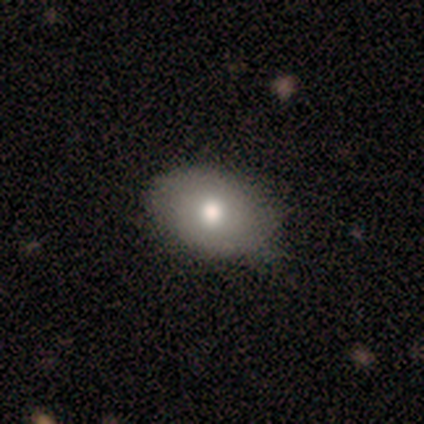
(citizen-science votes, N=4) Smooth or featured? smooth (100%)
How rounded? in between (75%)
Merging? minor disturbance (75%)